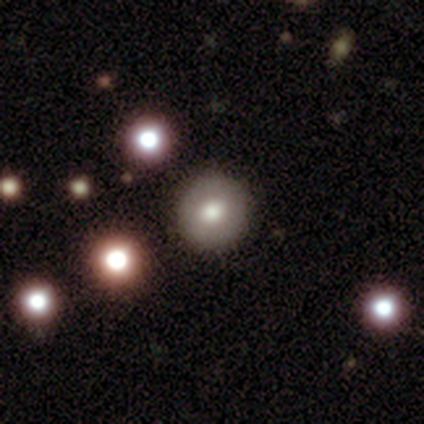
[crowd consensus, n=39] Smooth or featured: smooth — 62% (featured or disk — 21%)
How rounded: round — 92% (in between — 8%)
Merging: none — 91% (minor disturbance — 3%)